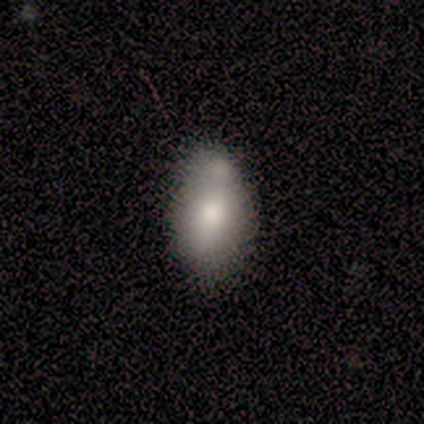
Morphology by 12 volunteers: Smooth or featured? 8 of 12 (67%) said smooth. How rounded? 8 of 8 (100%) said in between. Merging? 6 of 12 (50%) said merger.